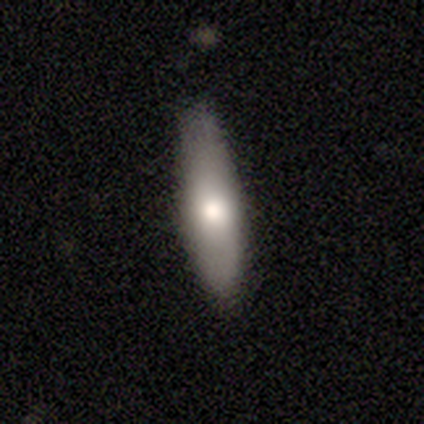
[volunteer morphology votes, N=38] A smooth galaxy with no disk features (82%) that is cigar-shaped (58%).

Vote fractions:
- Smooth or featured? smooth: 82% / featured or disk: 16% / star or artifact: 3%
- How rounded? cigar-shaped: 58% / in between: 39% / round: 3%
- Merging? none: 68% / minor disturbance: 27% / major disturbance: 3% / merger: 3%